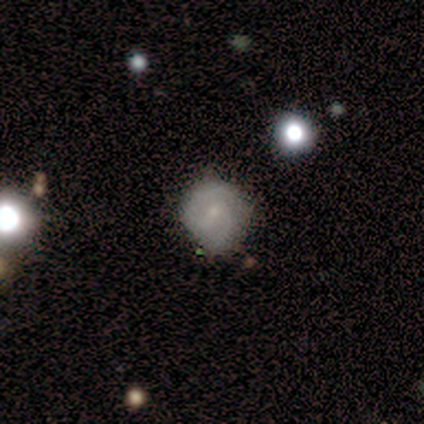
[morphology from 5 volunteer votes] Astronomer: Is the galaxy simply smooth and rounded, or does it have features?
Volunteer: smooth — 40%, tied with featured or disk at 40%.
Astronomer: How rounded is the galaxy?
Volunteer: round — 50%, tied with in between at 50%.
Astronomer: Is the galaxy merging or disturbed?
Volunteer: none — 75%.